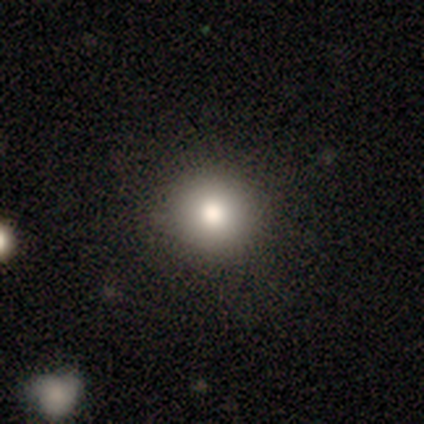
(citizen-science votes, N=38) Smooth or featured?
  - smooth: 84% *
  - star or artifact: 11%
  - featured or disk: 5%
How rounded?
  - round: 100% *
  - in between: 0%
  - cigar-shaped: 0%
Merging?
  - none: 85% *
  - minor disturbance: 9%
  - major disturbance: 6%
  - merger: 0%